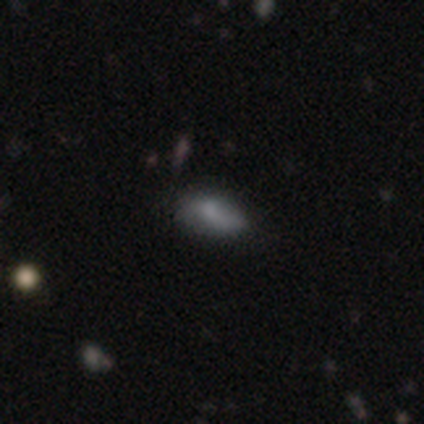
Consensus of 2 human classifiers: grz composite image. It shows a smooth galaxy with no disk features (100%) that is in between round and cigar-shaped (100%). Merging: none (50%, tied with major disturbance).